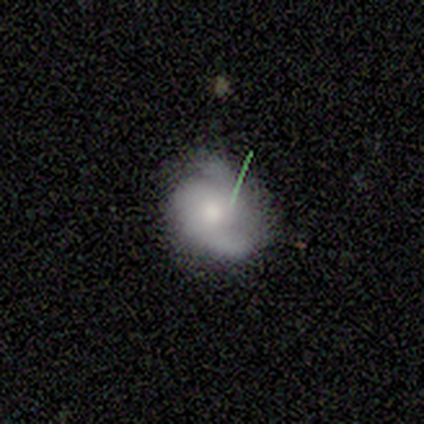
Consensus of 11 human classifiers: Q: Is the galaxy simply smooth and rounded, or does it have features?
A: featured or disk — 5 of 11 (45%).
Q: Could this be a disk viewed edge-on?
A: no — 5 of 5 (100%).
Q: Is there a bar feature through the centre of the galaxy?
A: no — 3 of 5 (60%).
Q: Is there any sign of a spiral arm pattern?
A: yes — 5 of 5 (100%).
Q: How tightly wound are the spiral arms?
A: tight — 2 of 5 (40%, tied with loose).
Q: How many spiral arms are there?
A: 2 — 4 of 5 (80%).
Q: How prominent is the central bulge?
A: moderate — 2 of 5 (40%).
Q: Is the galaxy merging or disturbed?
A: minor disturbance — 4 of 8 (50%).